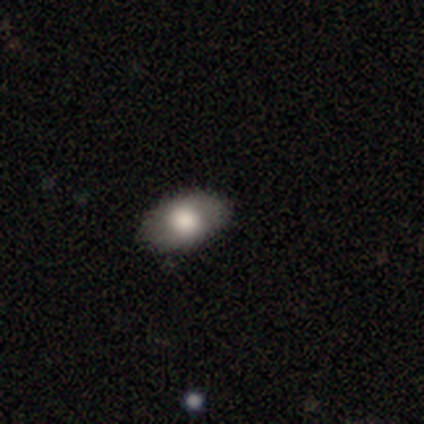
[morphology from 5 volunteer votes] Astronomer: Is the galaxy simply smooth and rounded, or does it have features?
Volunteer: smooth — 80%.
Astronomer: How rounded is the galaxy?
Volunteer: in between — 75%.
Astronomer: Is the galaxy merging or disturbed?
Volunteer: none — 100%.